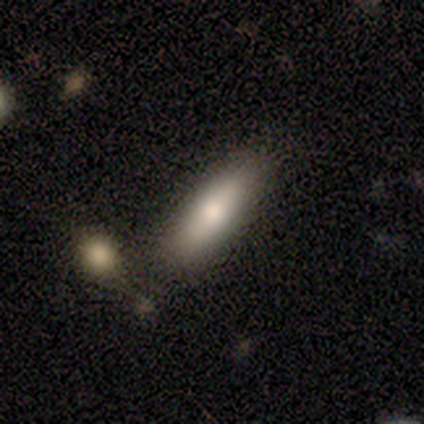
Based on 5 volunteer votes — This appears to be a smooth galaxy with no disk features (100%) that is cigar-shaped (60%). Merging: none (60%).